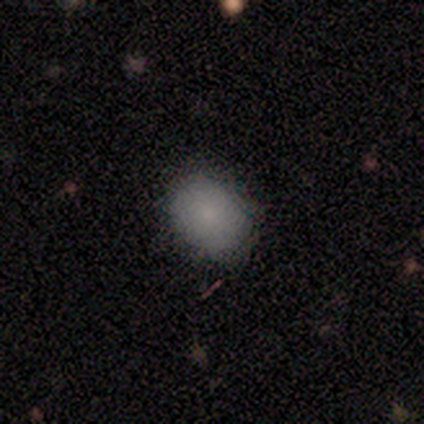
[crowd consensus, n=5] Overall: smooth (100%). How rounded: round (60%; in between 40%). Merging: none (100%).